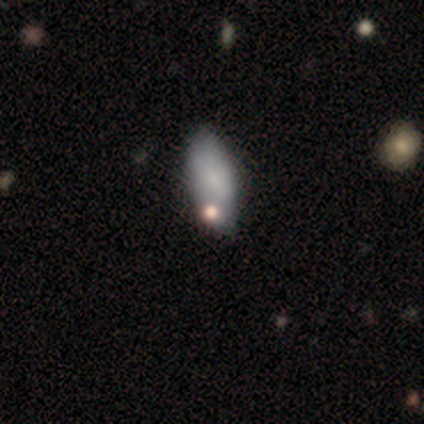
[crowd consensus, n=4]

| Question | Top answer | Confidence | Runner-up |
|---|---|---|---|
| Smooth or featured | smooth | 100% | — |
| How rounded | in between | 75% | cigar-shaped (25%) |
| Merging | none | 50% | minor disturbance (25%) |